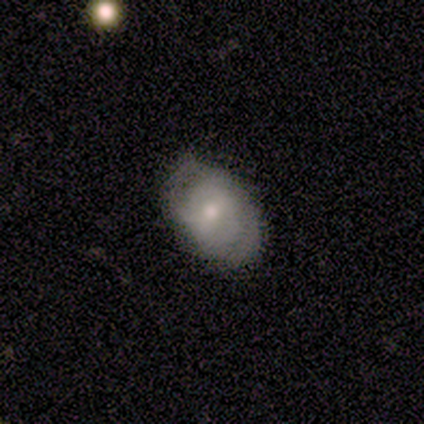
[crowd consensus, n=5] featured or disk 60%, smooth 40%, star or artifact 0%. Down the decision tree: edge-on disk — no (67%); bar — strong (50%, tied with no); spiral arms — yes (100%); spiral arm count — 2 (50%, tied with can't tell); spiral winding — tight (100%); bulge size — moderate (100%); merging — none (80%).